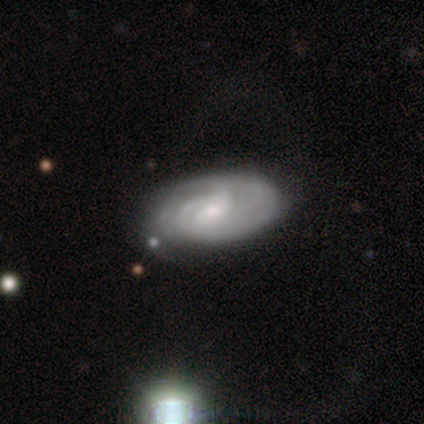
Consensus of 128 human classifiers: Smooth or featured? 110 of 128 (86%) said featured or disk. Edge-on disk? 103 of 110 (94%) said no. Bar? 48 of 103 (47%) said weak. Spiral arms? 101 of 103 (98%) said yes. Spiral winding? 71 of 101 (70%) said tight. Spiral arm count? 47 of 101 (47%) said can't tell. Bulge size? 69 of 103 (67%) said small. Merging? 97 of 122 (80%) said none.